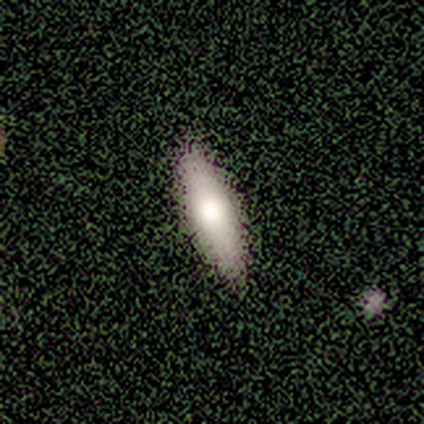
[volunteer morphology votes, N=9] This appears to be a smooth galaxy with no disk features (56%) that is cigar-shaped (60%). Merging: none (88%).